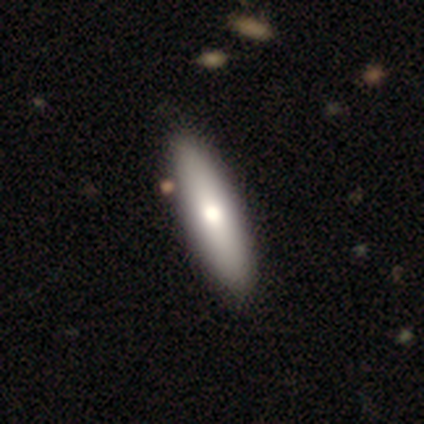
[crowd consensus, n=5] Q: Smooth or featured?
A: smooth (80%); runner-up: featured or disk (20%)
Q: How rounded?
A: in between (100%)
Q: Merging?
A: none (100%)